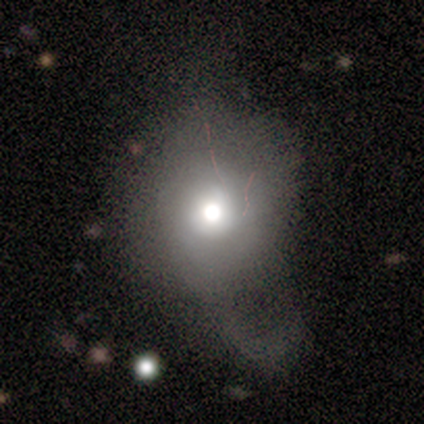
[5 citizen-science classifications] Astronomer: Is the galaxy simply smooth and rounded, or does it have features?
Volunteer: featured or disk — 40%, tied with star or artifact at 40%.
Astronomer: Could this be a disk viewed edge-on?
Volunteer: no — 100%.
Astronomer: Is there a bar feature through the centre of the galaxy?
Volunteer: no — 100%.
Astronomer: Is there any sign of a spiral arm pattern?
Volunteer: no — 100%.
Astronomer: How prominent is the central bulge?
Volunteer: moderate — 100%.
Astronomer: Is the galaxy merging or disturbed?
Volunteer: major disturbance — 67%.